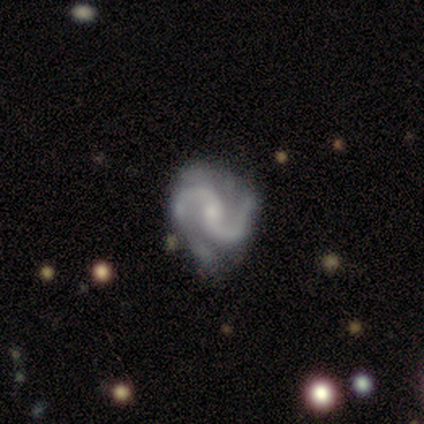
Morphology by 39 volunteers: Overall: featured or disk (92%). Edge-on disk: no (100%). Bar: weak (50%; no 31%). Spiral arms: yes (100%). Spiral arm count: 2 (89%). Spiral winding: loose (42%; medium 39%). Bulge size: small (61%; moderate 36%). Merging: none (49%; minor disturbance 30%).